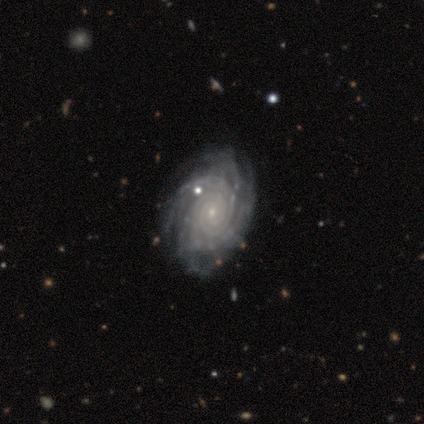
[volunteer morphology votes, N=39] Smooth or featured? 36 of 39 (92%) said featured or disk. Edge-on disk? 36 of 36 (100%) said no. Bar? 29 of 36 (81%) said no. Spiral arms? 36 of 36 (100%) said yes. Spiral winding? 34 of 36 (94%) said tight. Spiral arm count? 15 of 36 (42%) said more than 4. Bulge size? 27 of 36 (75%) said small. Merging? 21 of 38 (55%) said none.